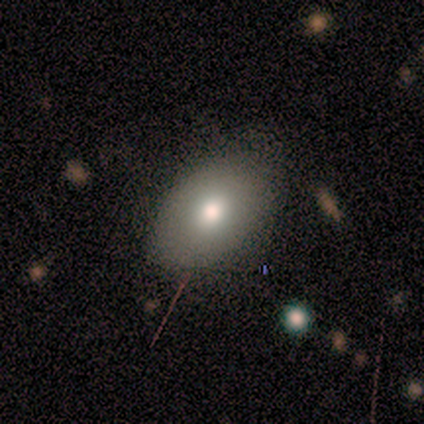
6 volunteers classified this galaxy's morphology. This appears to be a smooth galaxy with no disk features (83%) that is in between round and cigar-shaped (80%). Merging: minor disturbance (50%).